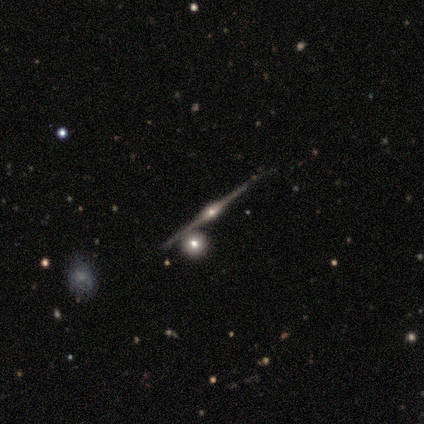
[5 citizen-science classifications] This appears to be a featured or disk galaxy (100%) viewed edge-on (100%) with a rounded central bulge (100%). Merging: none (100%).